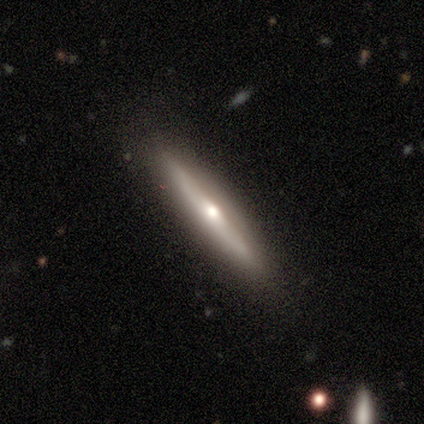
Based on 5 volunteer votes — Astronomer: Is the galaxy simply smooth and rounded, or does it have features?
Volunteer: featured or disk — 80%.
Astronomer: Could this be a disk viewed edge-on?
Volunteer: yes — 75%.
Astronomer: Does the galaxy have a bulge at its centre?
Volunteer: rounded — 100%.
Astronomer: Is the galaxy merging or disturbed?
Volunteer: none — 100%.